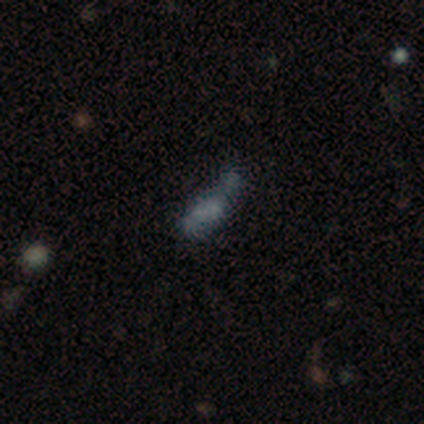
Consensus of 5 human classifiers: A featured or disk galaxy (100%) with no bar (100%), no spiral arms (67%) and no central bulge (67%).

Vote fractions:
- Smooth or featured? featured or disk: 100% / smooth: 0% / star or artifact: 0%
- Edge-on disk? no: 60% / yes: 40%
- Bar? no: 100% / strong: 0% / weak: 0%
- Spiral arms? no: 67% / yes: 33%
- Bulge size? none: 67% / small: 33% / dominant: 0% / large: 0% / moderate: 0%
- Merging? none: 40% (tied) / major disturbance: 40% (tied) / merger: 20% / minor disturbance: 0%